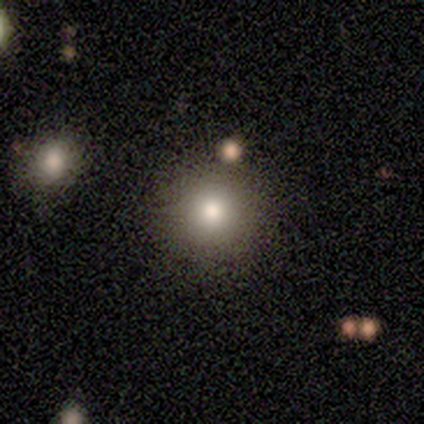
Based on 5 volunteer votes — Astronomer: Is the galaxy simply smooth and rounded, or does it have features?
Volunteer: smooth — 80%.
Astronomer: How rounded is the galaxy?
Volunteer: round — 75%.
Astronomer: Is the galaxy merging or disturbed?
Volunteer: none — 75%.